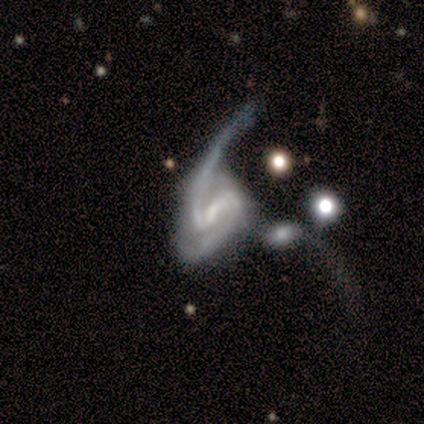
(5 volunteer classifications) A featured or disk galaxy (100%) with a strong bar (80%), 2 (80%) medium (60%) spiral arms (100%) and a moderate central bulge (60%). Merging: major disturbance (40%, tied with merger).